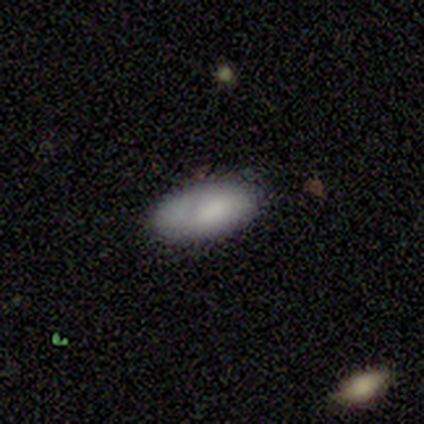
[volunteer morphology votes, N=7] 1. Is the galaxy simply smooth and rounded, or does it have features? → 71% smooth, 29% featured or disk, 0% star or artifact.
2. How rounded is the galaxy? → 100% in between, 0% round, 0% cigar-shaped.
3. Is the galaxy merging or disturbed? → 57% none, 43% minor disturbance, 0% major disturbance, 0% merger.